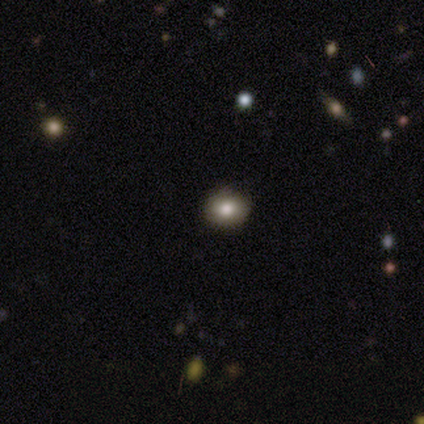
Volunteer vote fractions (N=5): Volunteers were most divided on "how rounded" (2-way tie): round: 50%, in between: 50%, cigar-shaped: 0%. More confident: smooth or featured — smooth (80%); merging — none (80%).